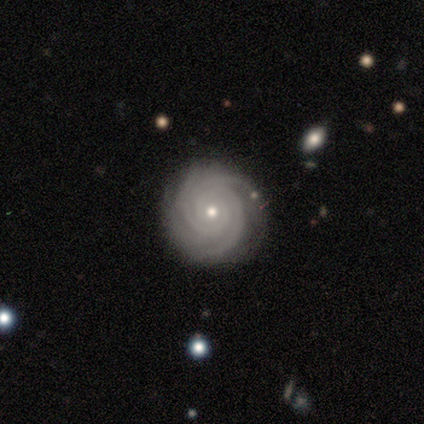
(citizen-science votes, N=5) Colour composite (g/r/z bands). It shows a featured or disk galaxy (100%) with no bar (100%), 3 (80%) tight (100%) spiral arms (100%) and a small central bulge (80%). Merging: none (80%).